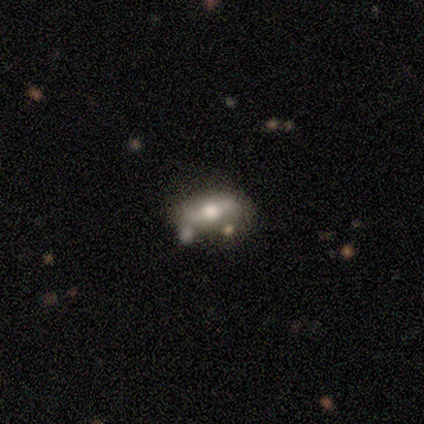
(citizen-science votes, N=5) This appears to be a featured or disk galaxy (80%) with no bar (75%), 2 (100%) loose (100%) spiral arms (50%, tied with no) and a moderate central bulge (50%). Merging: none (100%).